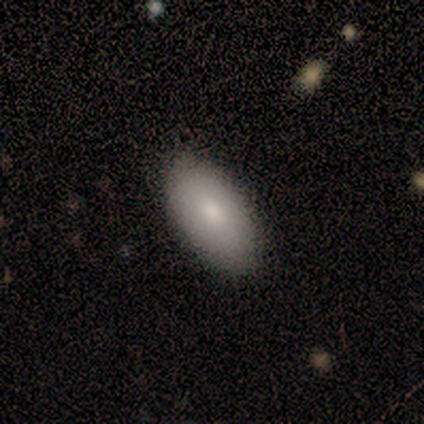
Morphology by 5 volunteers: Q: Smooth or featured?
A: smooth (80%); runner-up: featured or disk (20%)
Q: How rounded?
A: in between (100%)
Q: Merging?
A: none (80%); runner-up: minor disturbance (20%)